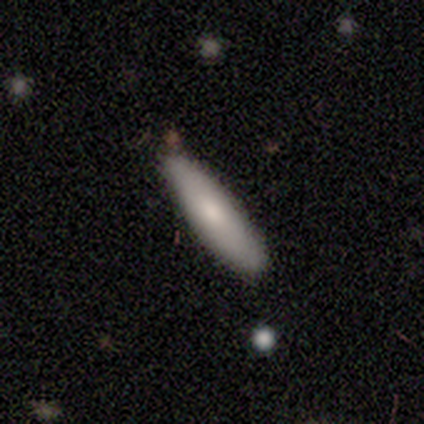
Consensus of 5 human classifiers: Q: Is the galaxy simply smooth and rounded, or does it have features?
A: smooth — 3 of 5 (60%).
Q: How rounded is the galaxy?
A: cigar-shaped — 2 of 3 (67%).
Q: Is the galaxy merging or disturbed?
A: none — 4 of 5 (80%).